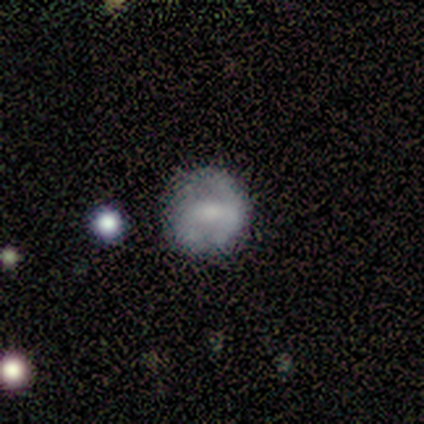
Smooth or featured: smooth — 50% (tied with featured or disk — 50%)
How rounded: round — 100%
Merging: none — 50% (tied with major disturbance — 50%)